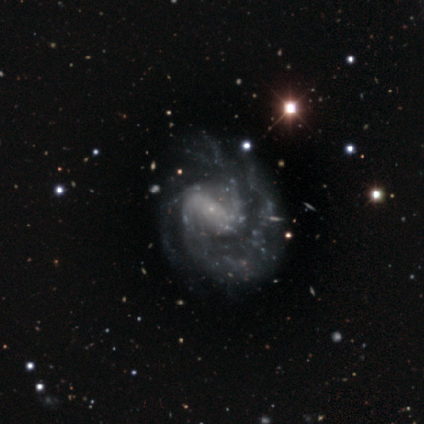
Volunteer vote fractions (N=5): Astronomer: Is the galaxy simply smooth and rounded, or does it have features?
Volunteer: featured or disk — 100%.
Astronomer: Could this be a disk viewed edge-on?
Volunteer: no — 80%.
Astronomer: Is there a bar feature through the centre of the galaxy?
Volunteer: weak — 75%.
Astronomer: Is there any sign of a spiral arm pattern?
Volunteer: yes — 100%.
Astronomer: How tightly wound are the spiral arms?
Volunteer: tight — 50%.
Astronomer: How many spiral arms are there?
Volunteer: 2 — 50%, tied with can't tell at 50%.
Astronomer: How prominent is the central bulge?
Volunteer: small — 100%.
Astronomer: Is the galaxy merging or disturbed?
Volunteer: none — 40%, tied with minor disturbance at 40%.